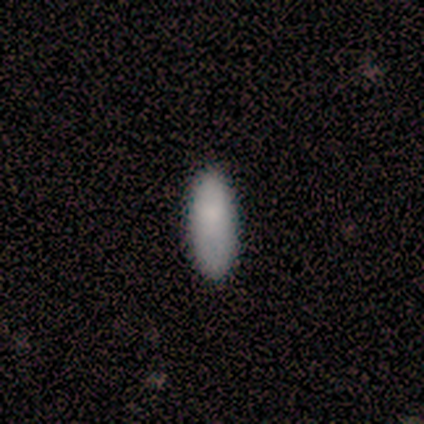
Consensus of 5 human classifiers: Q: Smooth or featured?
A: smooth (100%)
Q: How rounded?
A: in between (60%); runner-up: cigar-shaped (40%)
Q: Merging?
A: none (100%)